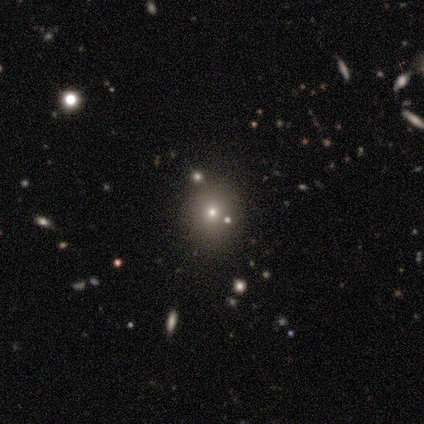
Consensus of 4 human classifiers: Overall: smooth (50%; featured or disk 25%). How rounded: round (100%). Merging: none (67%; minor disturbance 33%).